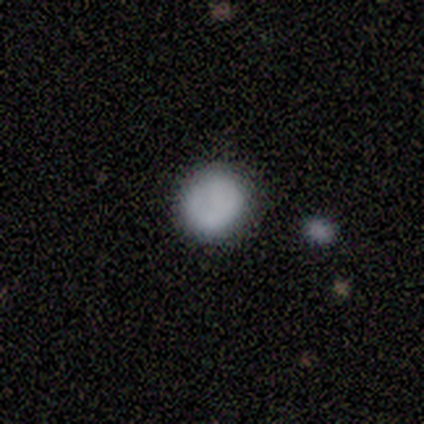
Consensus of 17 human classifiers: Smooth or featured?
  - smooth: 76% *
  - featured or disk: 18%
  - star or artifact: 6%
How rounded?
  - round: 77% *
  - in between: 23%
  - cigar-shaped: 0%
Merging?
  - none: 100% *
  - minor disturbance: 0%
  - major disturbance: 0%
  - merger: 0%